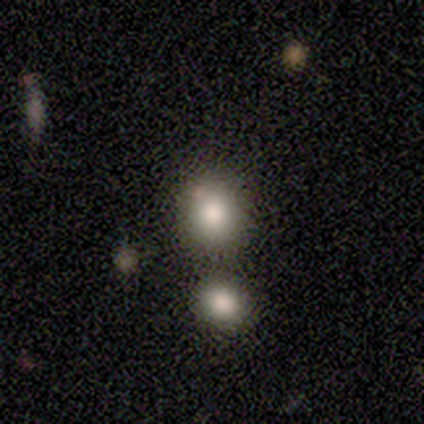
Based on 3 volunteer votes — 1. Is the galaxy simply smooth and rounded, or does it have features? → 67% smooth, 33% star or artifact, 0% featured or disk.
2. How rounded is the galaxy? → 100% round, 0% in between, 0% cigar-shaped.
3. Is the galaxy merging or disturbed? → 50% none (tied), 50% merger (tied), 0% minor disturbance, 0% major disturbance.